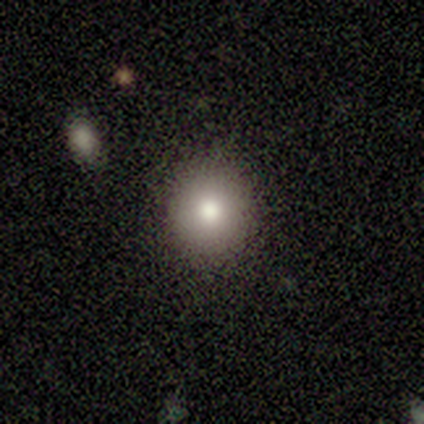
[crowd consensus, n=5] This appears to be a smooth galaxy with no disk features (80%) that is round (100%). Merging: none (75%).